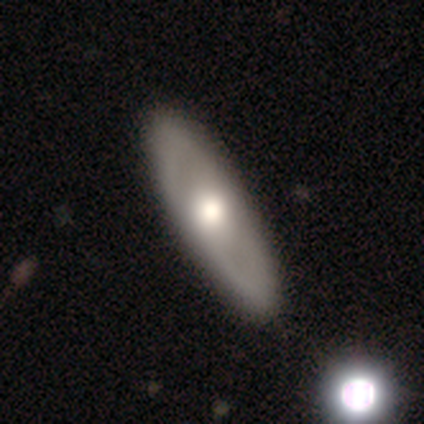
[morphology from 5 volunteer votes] Q: Smooth or featured?
A: featured or disk (100%)
Q: Edge-on disk?
A: no (80%); runner-up: yes (20%)
Q: Bar?
A: no (100%)
Q: Spiral arms?
A: no (75%); runner-up: yes (25%)
Q: Bulge size?
A: moderate (100%)
Q: Merging?
A: none (100%)